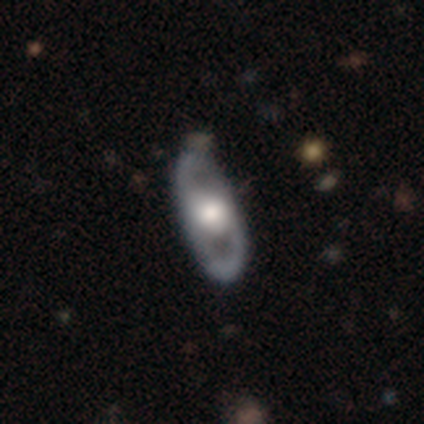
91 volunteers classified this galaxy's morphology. Smooth or featured? featured or disk (69%)
Edge-on disk? no (86%)
Bar? no (76%)
Spiral arms? yes (50%, tied with no)
Spiral winding? medium (59%)
Spiral arm count? 2 (81%)
Bulge size? large (48%)
Merging? none (84%)